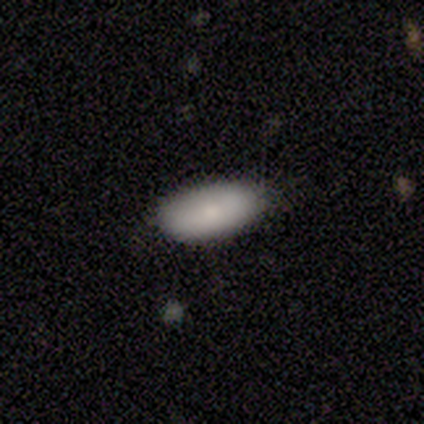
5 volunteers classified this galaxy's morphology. A smooth galaxy with no disk features (100%) that is in between round and cigar-shaped (80%).

Vote fractions:
- Smooth or featured? smooth: 100% / featured or disk: 0% / star or artifact: 0%
- How rounded? in between: 80% / cigar-shaped: 20% / round: 0%
- Merging? none: 100% / minor disturbance: 0% / major disturbance: 0% / merger: 0%